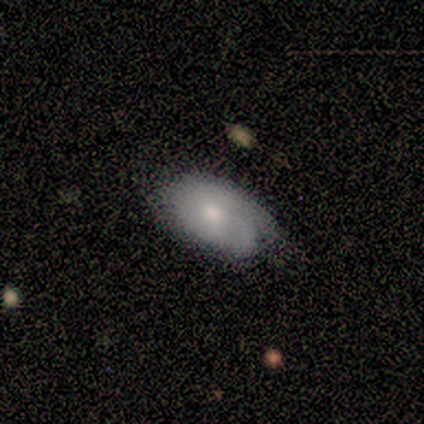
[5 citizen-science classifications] Volunteers were most divided on "merging": none: 60%, minor disturbance: 40%, major disturbance: 0%, merger: 0%. More confident: smooth or featured — smooth (100%); how rounded — in between (100%).